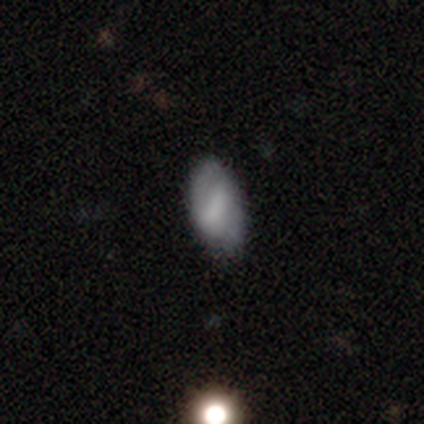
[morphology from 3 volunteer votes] type=smooth (67%); roundness=in between (100%); merging=minor disturbance (67%).